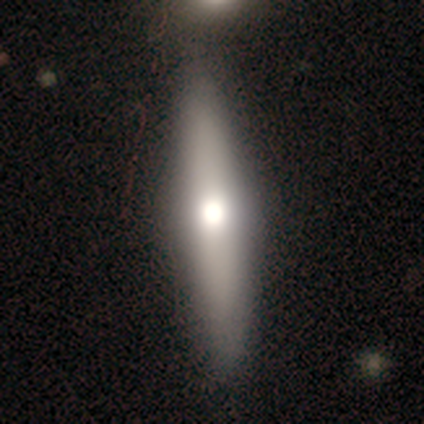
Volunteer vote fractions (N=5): Morphology: type=featured or disk (40%, tied with star or artifact); edge-on=yes (100%); edge-on bulge=none (50%, tied with rounded); merging=none (67%).